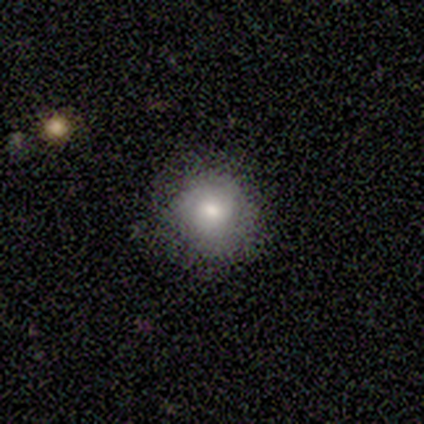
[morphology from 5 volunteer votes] smooth_or_featured: smooth (p=0.80) [alt: featured or disk p=0.20]
how_rounded: round (p=1.00)
merging: none (p=0.80) [alt: minor disturbance p=0.20]